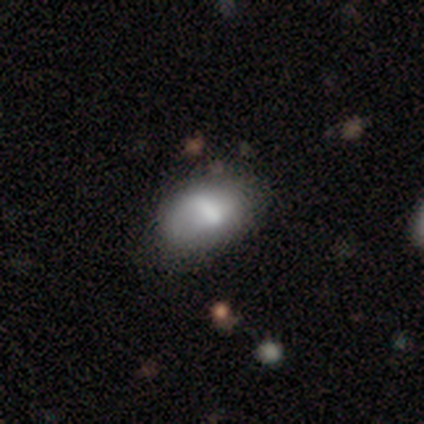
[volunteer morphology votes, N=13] Smooth or featured? 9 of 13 (69%) said smooth. How rounded? 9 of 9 (100%) said in between. Merging? 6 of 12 (50%, tied with minor disturbance) said none.